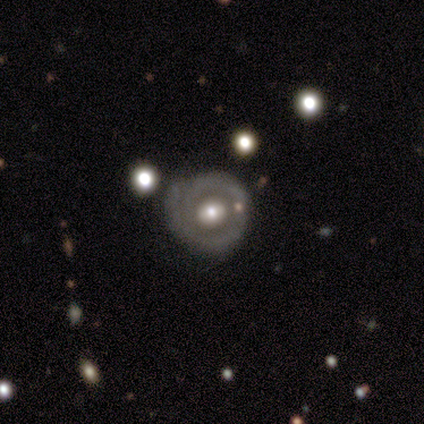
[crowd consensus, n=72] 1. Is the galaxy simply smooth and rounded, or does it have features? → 75% featured or disk, 18% smooth, 7% star or artifact.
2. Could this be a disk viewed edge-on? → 98% no, 2% yes.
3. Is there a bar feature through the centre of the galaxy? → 74% no, 17% weak, 9% strong.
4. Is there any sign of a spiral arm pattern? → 57% no, 43% yes.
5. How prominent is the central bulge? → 62% moderate, 23% large, 13% small, 2% dominant, 0% none.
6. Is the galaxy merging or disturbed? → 52% none, 42% minor disturbance, 6% major disturbance, 0% merger.